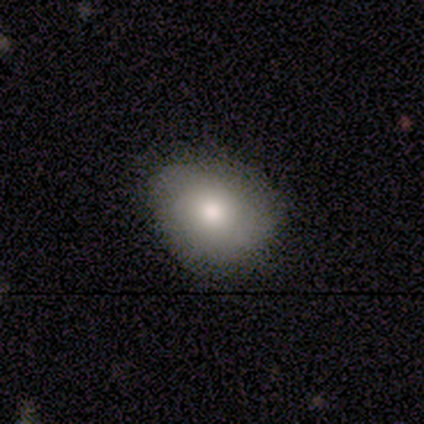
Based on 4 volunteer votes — Smooth or featured?
  - smooth: 50% * (tied)
  - featured or disk: 50% * (tied)
  - star or artifact: 0%
How rounded?
  - in between: 100% *
  - round: 0%
  - cigar-shaped: 0%
Merging?
  - none: 75% *
  - minor disturbance: 25%
  - major disturbance: 0%
  - merger: 0%